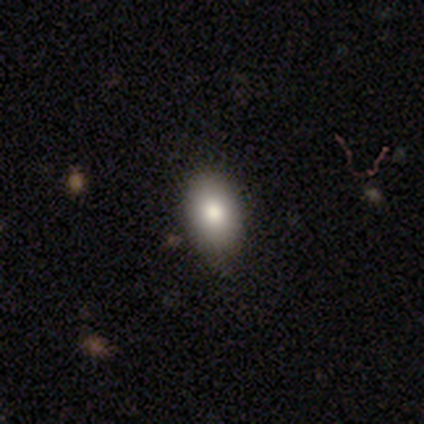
Overall: smooth (85%). How rounded: in between (94%). Merging: none (78%).